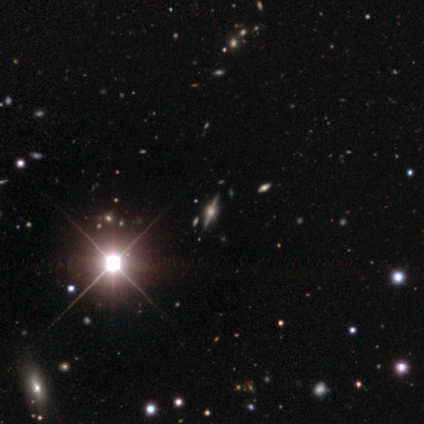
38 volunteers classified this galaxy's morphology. type=featured or disk (63%); edge-on=yes (100%); edge-on bulge=rounded (71%); merging=none (56%).